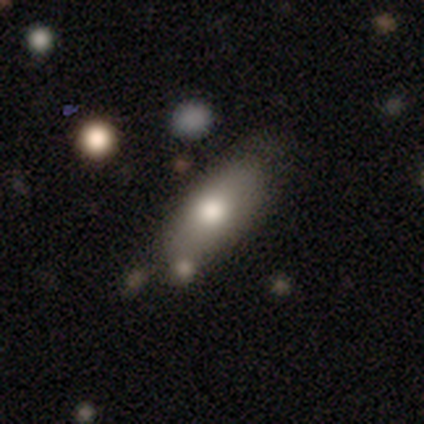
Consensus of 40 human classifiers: Smooth or featured?
  - smooth: 68% *
  - featured or disk: 28%
  - star or artifact: 5%
How rounded?
  - in between: 70% *
  - cigar-shaped: 30%
  - round: 0%
Merging?
  - none: 66% *
  - minor disturbance: 26%
  - merger: 5%
  - major disturbance: 3%